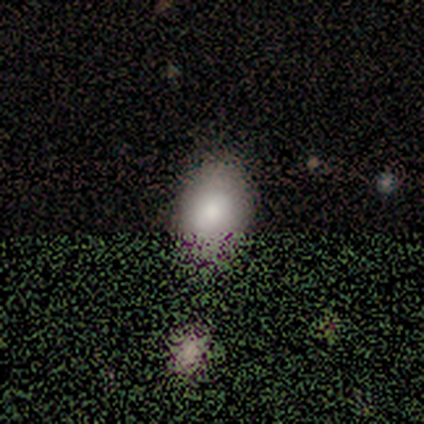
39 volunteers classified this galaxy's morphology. smooth-or-featured: smooth: 62% | star or artifact: 26% | featured or disk: 13%
  how-rounded: in between: 88% | round: 12% | cigar-shaped: 0%
  merging: none: 38% | merger: 14% | major disturbance: 10% | minor disturbance: 7%